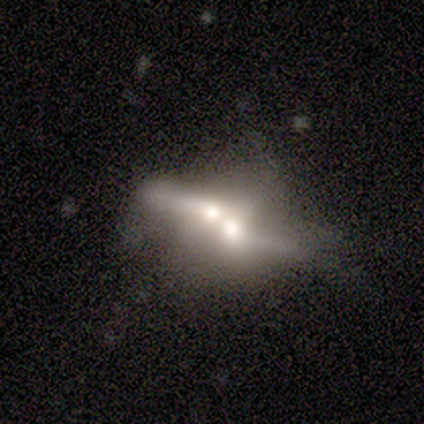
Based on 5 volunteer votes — featured or disk 60%, smooth 40%, star or artifact 0%. Down the decision tree: edge-on disk — no (100%); bar — no (67%); spiral arms — no (100%); bulge size — moderate (100%); merging — merger (100%).